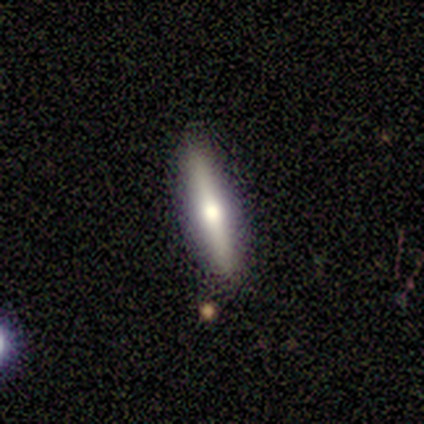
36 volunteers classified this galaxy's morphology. Smooth or featured? smooth (53%)
How rounded? cigar-shaped (100%)
Merging? none (88%)